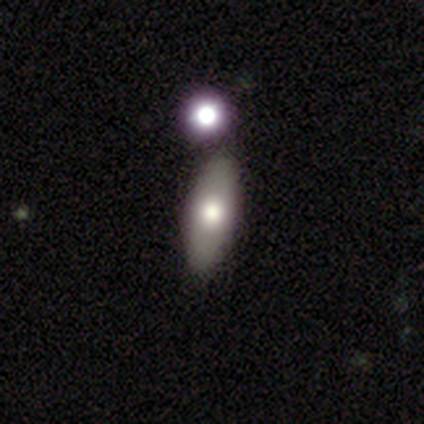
Smooth or featured: smooth — 82% (featured or disk — 18%)
How rounded: in between — 72% (cigar-shaped — 22%)
Merging: none — 56% (merger — 15%)